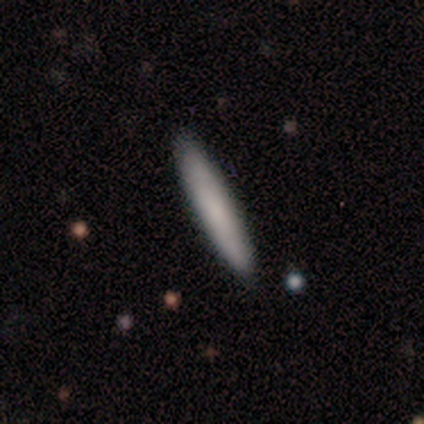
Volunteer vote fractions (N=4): smooth_or_featured: smooth (p=1.00)
how_rounded: cigar-shaped (p=1.00)
merging: none (p=0.75) [alt: minor disturbance p=0.25]